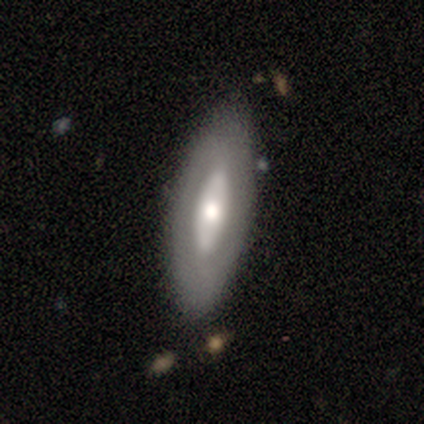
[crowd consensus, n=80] This is possibly a featured or disk galaxy (52%). It is likely not viewed edge-on (76%). Bar: possibly no (53%). Spiral arm pattern: clearly no (81%). Central bulge: likely moderate (69%). Merging: marginally none (32%).